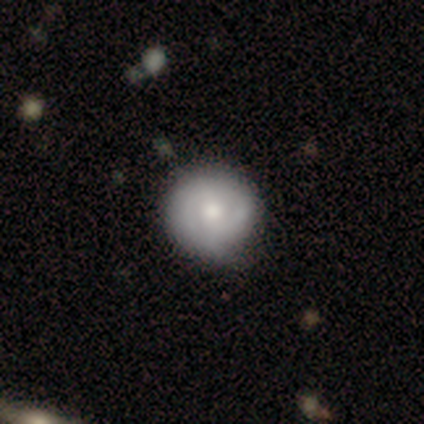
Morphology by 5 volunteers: This is clearly a smooth galaxy (100%). How rounded: clearly round (100%). Merging: clearly none (80%).